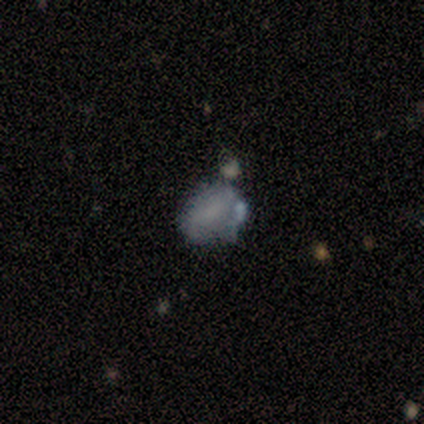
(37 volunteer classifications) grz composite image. It shows a smooth galaxy with no disk features (57%) that is in between round and cigar-shaped (71%). Merging: none (50%).